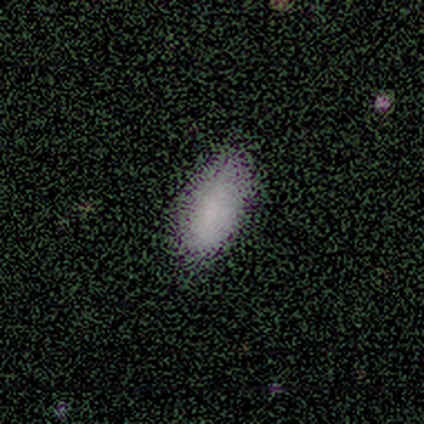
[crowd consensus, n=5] Smooth or featured?
  - smooth: 60% *
  - star or artifact: 40%
  - featured or disk: 0%
How rounded?
  - in between: 100% *
  - round: 0%
  - cigar-shaped: 0%
Merging?
  - none: 67% *
  - minor disturbance: 33%
  - major disturbance: 0%
  - merger: 0%